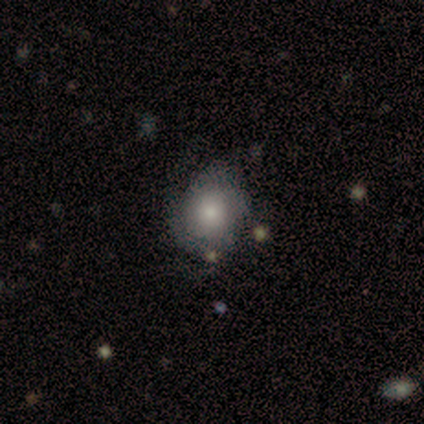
Smooth or featured? featured or disk (50%)
Edge-on disk? no (89%)
Bar? no (88%)
Spiral arms? no (53%)
Bulge size? moderate (47%)
Merging? none (58%)